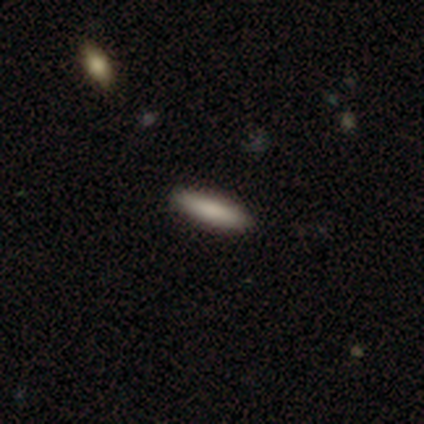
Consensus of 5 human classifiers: This appears to be a smooth galaxy with no disk features (60%) that is in between round and cigar-shaped (67%). Merging: none (75%).